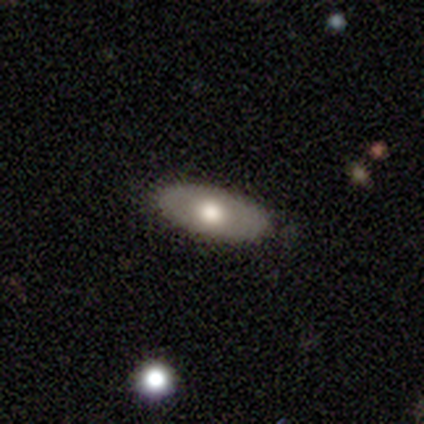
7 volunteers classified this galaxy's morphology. A smooth galaxy with no disk features (57%) that is in between round and cigar-shaped (100%). Merging: none (100%).